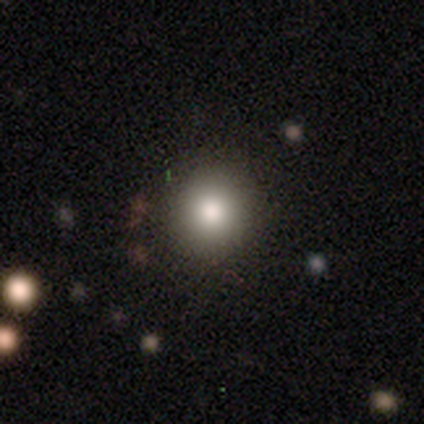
Smooth or featured?
  - smooth: 70% *
  - star or artifact: 18%
  - featured or disk: 12%
How rounded?
  - round: 96% *
  - in between: 4%
  - cigar-shaped: 0%
Merging?
  - none: 88% *
  - minor disturbance: 9%
  - major disturbance: 3%
  - merger: 0%